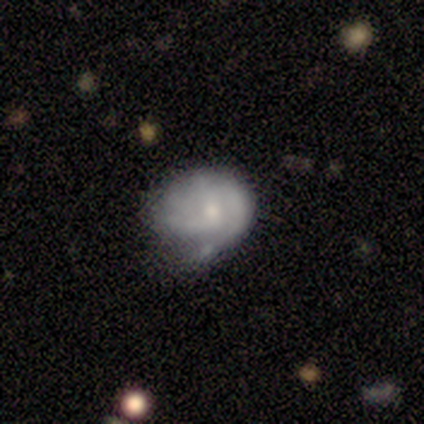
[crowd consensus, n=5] Smooth or featured?
  - smooth: 40% * (tied)
  - featured or disk: 40% * (tied)
  - star or artifact: 20%
How rounded?
  - round: 100% *
  - in between: 0%
  - cigar-shaped: 0%
Merging?
  - minor disturbance: 75% *
  - major disturbance: 25%
  - none: 0%
  - merger: 0%